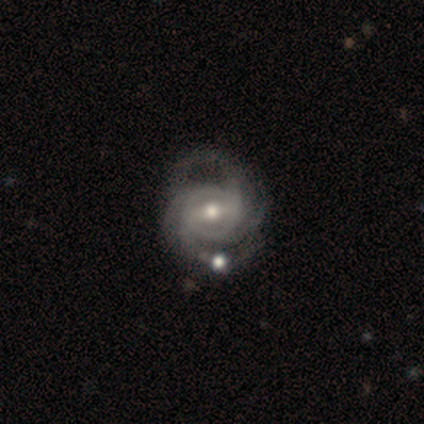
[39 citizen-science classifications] A featured or disk galaxy (100%) with a strong bar (44%), 2 (41%) tight (44%) spiral arms (100%) and a moderate central bulge (69%). Merging: none (41%).